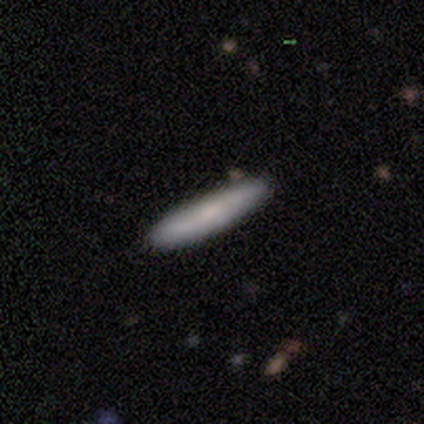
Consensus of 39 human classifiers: Smooth or featured? smooth (56%)
How rounded? cigar-shaped (91%)
Merging? none (89%)